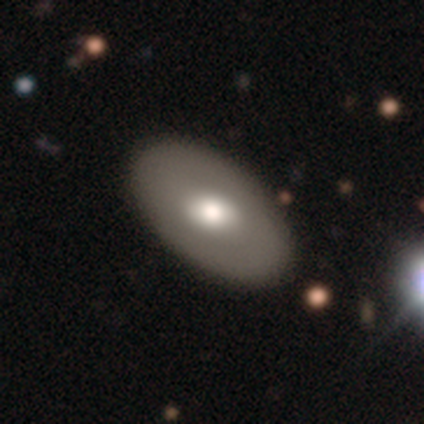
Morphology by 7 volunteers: Overall: featured or disk (71%). Edge-on disk: no (80%). Bar: no (100%). Spiral arms: no (100%). Bulge size: moderate (75%). Merging: none (100%).